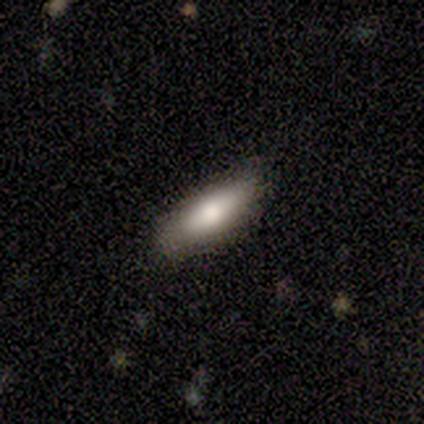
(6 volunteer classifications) Smooth or featured? 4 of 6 (67%) said smooth. How rounded? 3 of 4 (75%) said in between. Merging? 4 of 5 (80%) said none.